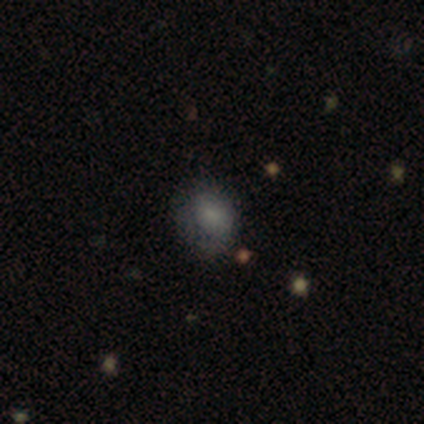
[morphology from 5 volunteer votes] Smooth or featured? smooth (80%)
How rounded? round (50%, tied with in between)
Merging? none (80%)